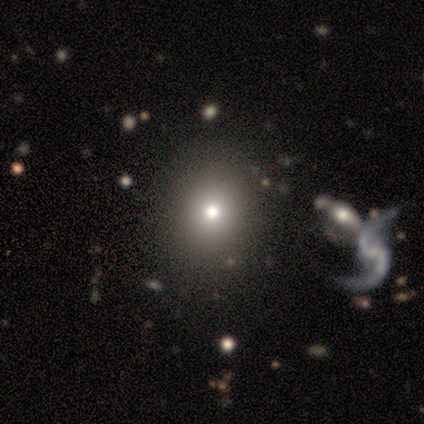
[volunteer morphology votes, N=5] Smooth or featured?
  - star or artifact: 80% *
  - smooth: 20%
  - featured or disk: 0%